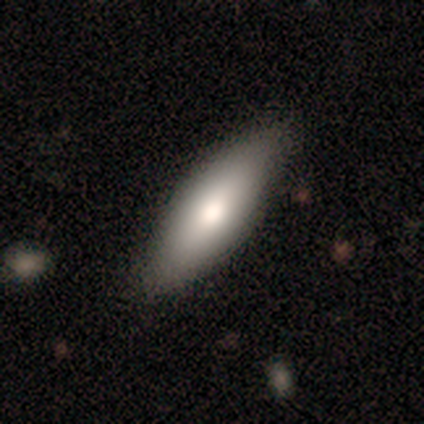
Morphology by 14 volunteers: Volunteers were most divided on "how rounded": in between: 55%, cigar-shaped: 45%, round: 0%. More confident: smooth or featured — smooth (79%); merging — none (71%).